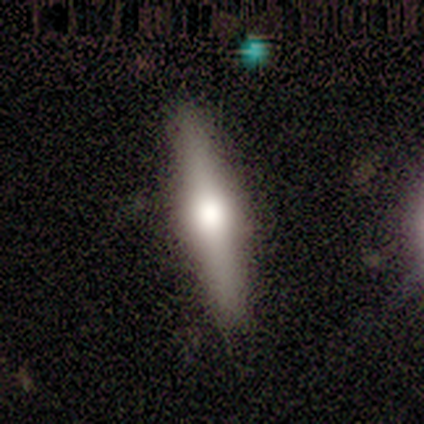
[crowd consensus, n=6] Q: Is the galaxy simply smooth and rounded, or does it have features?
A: smooth — 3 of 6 (50%, tied with featured or disk).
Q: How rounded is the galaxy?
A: cigar-shaped — 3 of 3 (100%).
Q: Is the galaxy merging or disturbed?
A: none — 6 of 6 (100%).